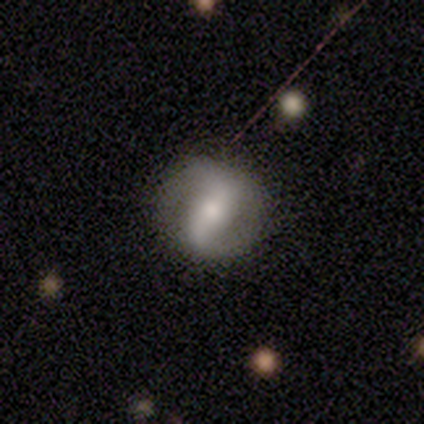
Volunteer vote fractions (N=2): Smooth or featured: featured or disk — 100%
Edge-on disk: no — 100%
Bar: weak — 50% (tied with no — 50%)
Spiral arms: yes — 50% (tied with no — 50%)
Spiral winding: loose — 100%
Spiral arm count: 2 — 100%
Bulge size: moderate — 50% (tied with small — 50%)
Merging: none — 100%